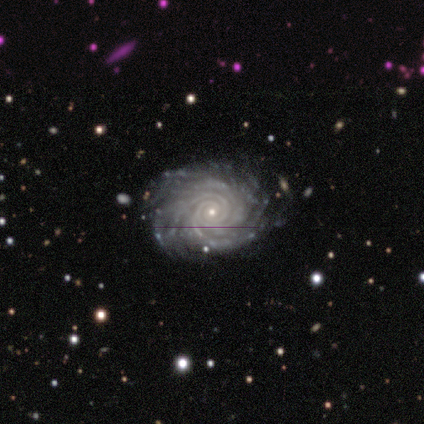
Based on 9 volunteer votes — A featured or disk galaxy (100%) with no bar (67%), more than 4 (44%) tight (78%) spiral arms (100%) and a small central bulge (89%). Merging: none (89%).